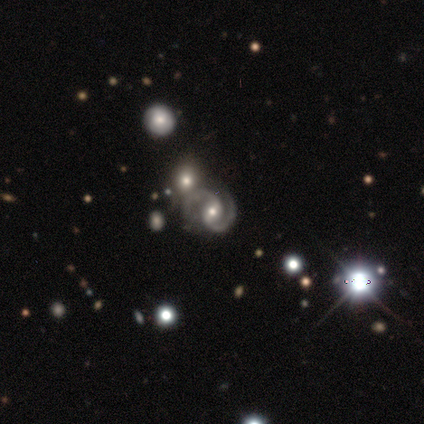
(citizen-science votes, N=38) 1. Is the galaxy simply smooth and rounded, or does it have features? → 71% featured or disk, 21% star or artifact, 8% smooth.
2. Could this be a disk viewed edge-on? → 100% no, 0% yes.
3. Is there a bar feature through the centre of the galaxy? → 41% weak, 30% strong, 30% no.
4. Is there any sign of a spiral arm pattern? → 100% yes, 0% no.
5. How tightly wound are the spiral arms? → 52% medium, 41% tight, 7% loose.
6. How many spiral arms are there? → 100% 2, 0% 1, 0% 3, 0% 4, 0% more than 4, 0% can't tell.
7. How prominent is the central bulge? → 52% moderate, 33% small, 11% large, 4% none, 0% dominant.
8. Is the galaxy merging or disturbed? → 60% none, 23% merger, 13% minor disturbance, 3% major disturbance.